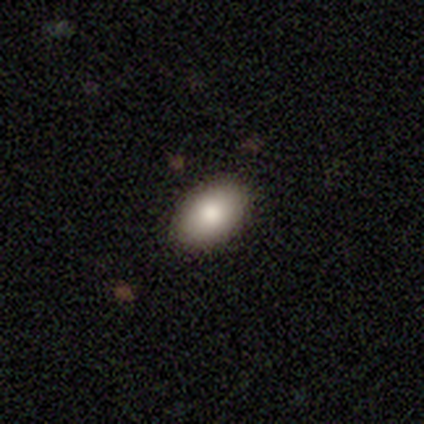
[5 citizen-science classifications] Morphology: type=smooth (80%); roundness=in between (100%); merging=none (75%).